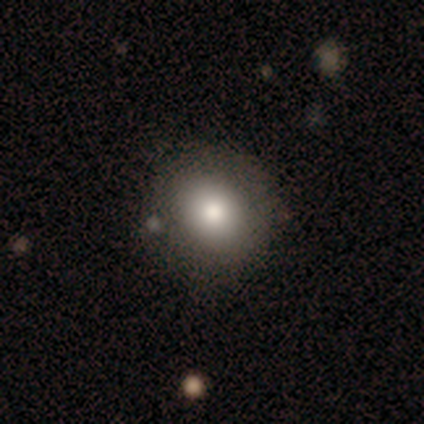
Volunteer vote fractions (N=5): smooth 80%, featured or disk 20%, star or artifact 0%. Down the decision tree: how rounded — round (100%); merging — none (100%).